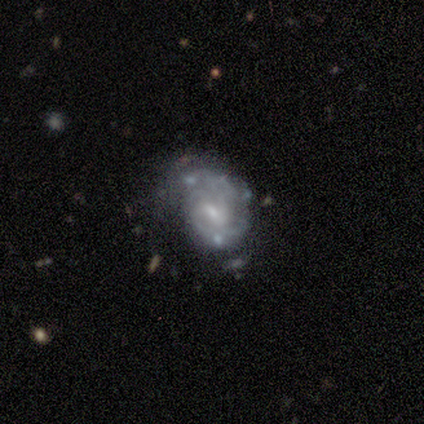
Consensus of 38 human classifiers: This appears to be a featured or disk galaxy (84%) with a weak bar (59%), 2 (37%) tight (70%) spiral arms (84%) and a small central bulge (59%). Merging: none (46%).